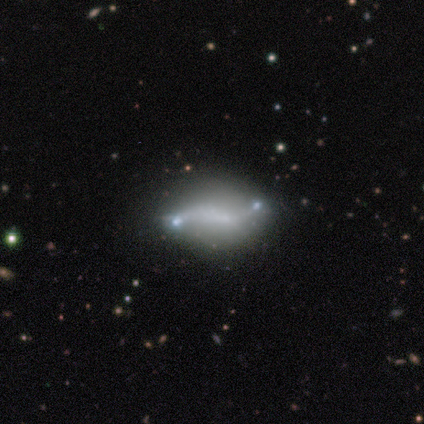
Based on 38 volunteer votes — smooth-or-featured: featured or disk: 68% | smooth: 21% | star or artifact: 11%
  disk-edge-on: no: 85% | yes: 15%
    bar: no: 73% | weak: 18% | strong: 9%
    has-spiral-arms: yes: 73% | no: 27%
      spiral-winding: loose: 100% | tight: 0% | medium: 0%
      spiral-arm-count: 2: 81% | 1: 12% | can't tell: 6% | 3: 0% | 4: 0% | more than 4: 0%
    bulge-size: none: 86% | small: 14% | dominant: 0% | large: 0% | moderate: 0%
  merging: none: 50% | merger: 29% | minor disturbance: 15% | major disturbance: 6%